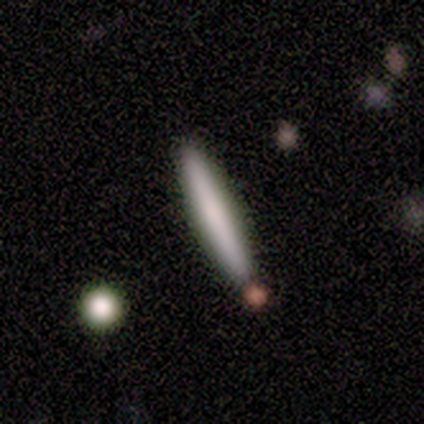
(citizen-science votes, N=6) Smooth or featured? featured or disk (67%)
Edge-on disk? yes (100%)
Edge-on bulge? boxy (50%)
Merging? none (83%)